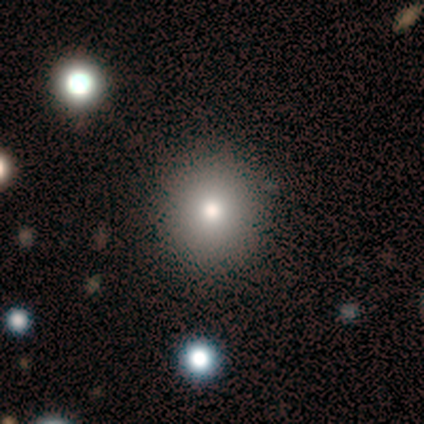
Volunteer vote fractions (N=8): A smooth galaxy with no disk features (62%) that is round (100%). Merging: none (100%).